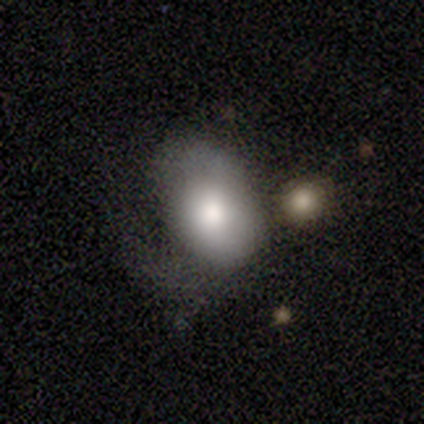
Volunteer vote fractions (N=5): smooth 60%, featured or disk 40%, star or artifact 0%. Down the decision tree: how rounded — in between (100%); merging — none (40%, tied with major disturbance).